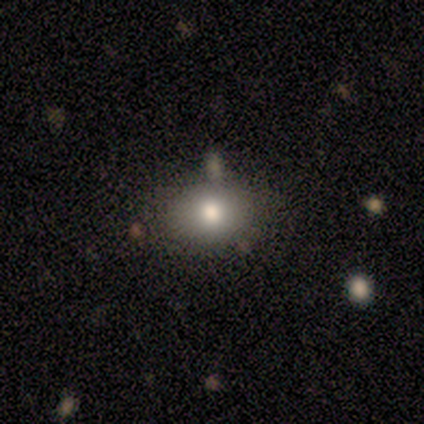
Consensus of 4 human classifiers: Q: Smooth or featured?
A: smooth (100%)
Q: How rounded?
A: round (75%); runner-up: in between (25%)
Q: Merging?
A: none (75%); runner-up: minor disturbance (25%)